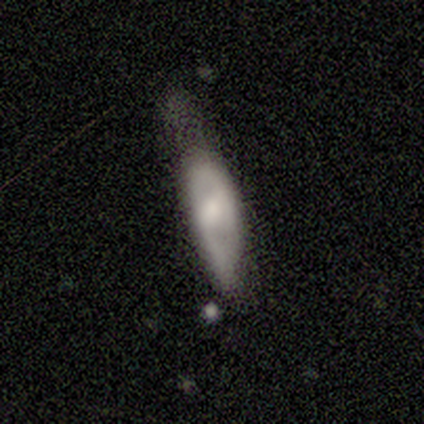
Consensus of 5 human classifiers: Volunteers were most divided on "bar": no: 67%, weak: 33%, strong: 0%. More confident: smooth or featured — featured or disk (80%); edge-on disk — no (75%); spiral arms — no (67%); bulge size — moderate (67%); merging — minor disturbance (60%).